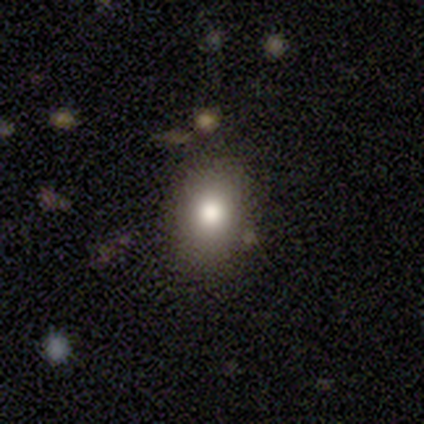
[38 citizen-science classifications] A smooth galaxy with no disk features (92%) that is in between round and cigar-shaped (51%).

Vote fractions:
- Smooth or featured? smooth: 92% / star or artifact: 8% / featured or disk: 0%
- How rounded? in between: 51% / round: 49% / cigar-shaped: 0%
- Merging? none: 69% / minor disturbance: 17% / merger: 11% / major disturbance: 3%